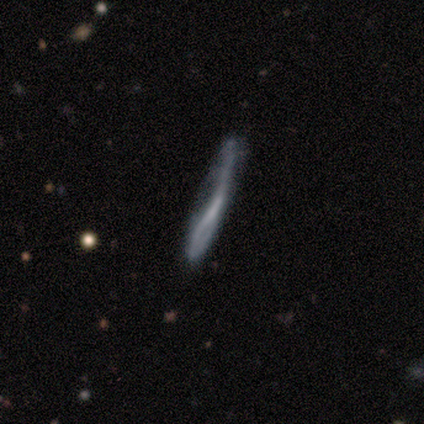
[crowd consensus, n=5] smooth_or_featured: featured or disk (p=0.60) [alt: smooth p=0.40]
disk_edge_on: no (p=0.67) [alt: yes p=0.33]
bar: weak (p=0.50) [tied with: no p=0.50]
has_spiral_arms: yes (p=0.50) [tied with: no p=0.50]
spiral_winding: loose (p=1.00)
spiral_arm_count: 2 (p=1.00)
bulge_size: small (p=0.50) [tied with: none p=0.50]
merging: none (p=0.60) [alt: minor disturbance p=0.20]